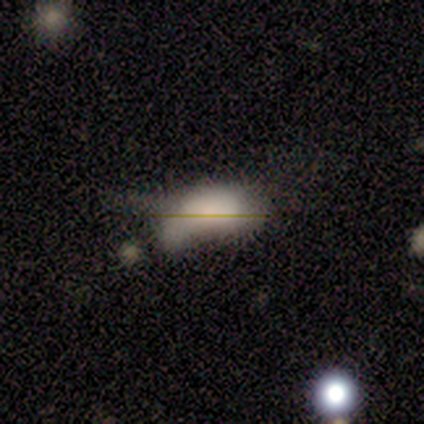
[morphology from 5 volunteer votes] Smooth or featured? 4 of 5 (80%) said smooth. How rounded? 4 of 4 (100%) said in between. Merging? 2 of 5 (40%) said merger.